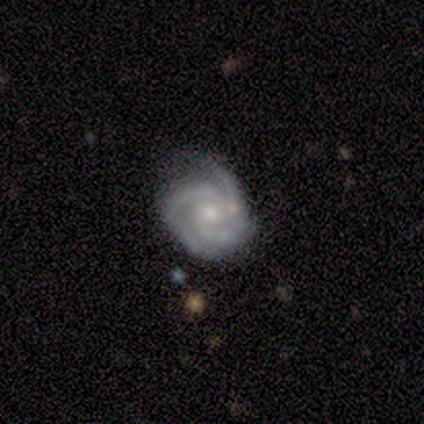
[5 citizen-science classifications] A featured or disk galaxy (100%) with no bar (80%), 3 (80%) medium (80%) spiral arms (100%) and a moderate central bulge (60%). Merging: none (100%).